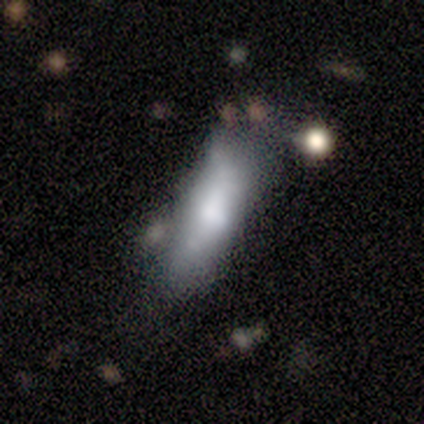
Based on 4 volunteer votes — Morphology: type=smooth (100%); roundness=in between (75%); merging=none (50%, tied with minor disturbance).